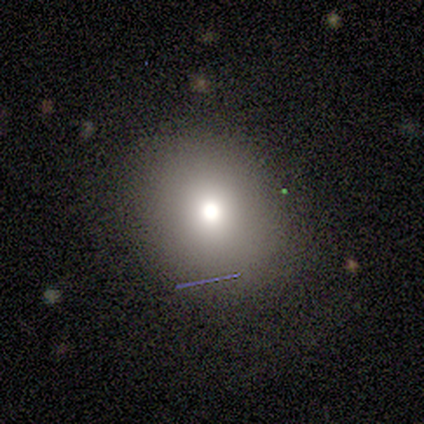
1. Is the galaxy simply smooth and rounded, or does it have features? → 80% smooth, 20% featured or disk, 0% star or artifact.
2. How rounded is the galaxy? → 75% round, 25% in between, 0% cigar-shaped.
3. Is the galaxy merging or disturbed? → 100% none, 0% minor disturbance, 0% major disturbance, 0% merger.